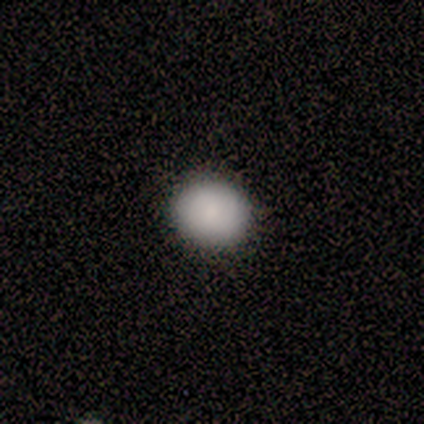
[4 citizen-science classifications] Morphology: type=smooth (75%); roundness=round (100%); merging=none (100%).